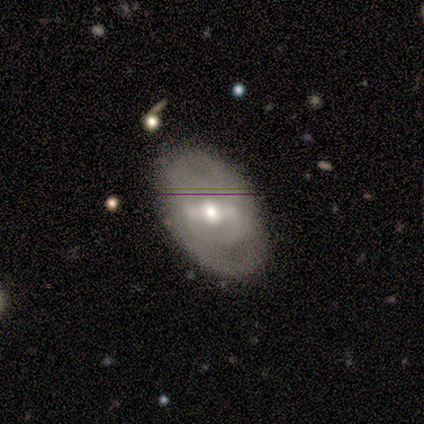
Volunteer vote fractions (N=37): smooth-or-featured: featured or disk: 70% | smooth: 19% | star or artifact: 11%
  disk-edge-on: no: 100% | yes: 0%
    bar: strong: 62% | weak: 35% | no: 4%
    has-spiral-arms: no: 65% | yes: 35%
    bulge-size: moderate: 62% | small: 23% | large: 12% | dominant: 4% | none: 0%
  merging: none: 85% | major disturbance: 9% | minor disturbance: 6% | merger: 0%